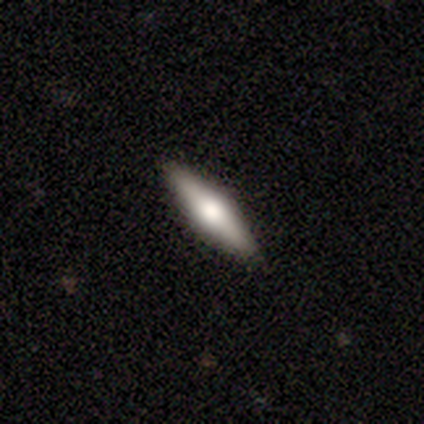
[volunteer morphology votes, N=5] Smooth or featured?
  - smooth: 60% *
  - featured or disk: 40%
  - star or artifact: 0%
How rounded?
  - cigar-shaped: 67% *
  - in between: 33%
  - round: 0%
Merging?
  - none: 100% *
  - minor disturbance: 0%
  - major disturbance: 0%
  - merger: 0%